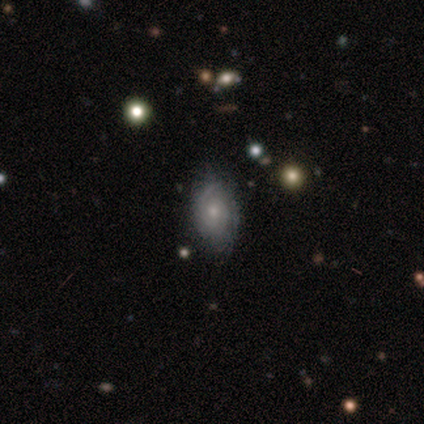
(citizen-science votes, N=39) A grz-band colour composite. It shows a featured or disk galaxy (74%) with no bar (68%), tight (74%) spiral arms (82%) and a small central bulge (64%). Merging: none (74%).